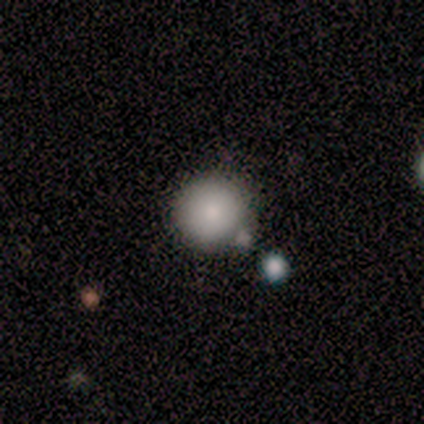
Morphology: type=smooth (100%); roundness=round (60%); merging=none (80%).